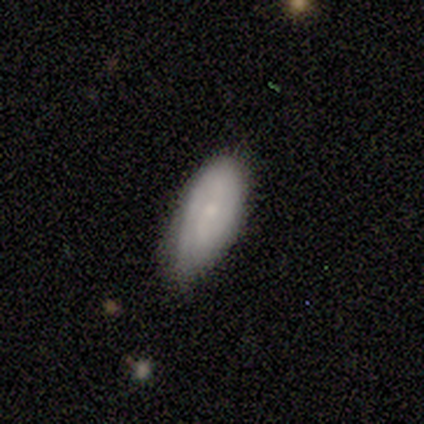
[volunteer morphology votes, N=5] A smooth galaxy with no disk features (60%) that is in between round and cigar-shaped (100%).

Vote fractions:
- Smooth or featured? smooth: 60% / featured or disk: 40% / star or artifact: 0%
- How rounded? in between: 100% / round: 0% / cigar-shaped: 0%
- Merging? none: 60% / minor disturbance: 40% / major disturbance: 0% / merger: 0%